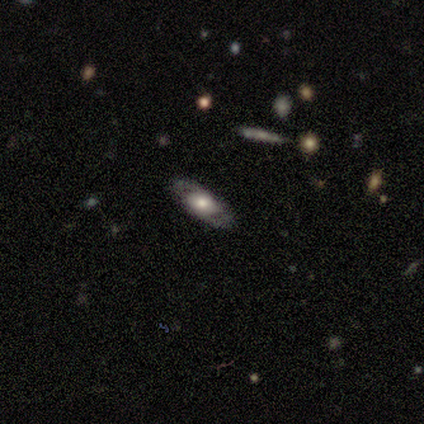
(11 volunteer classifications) This is likely a featured or disk galaxy (64%). It is likely not viewed edge-on (71%). Bar: clearly no (80%). Spiral arm pattern: likely yes (60%). Spiral arm count: clearly 2 (100%). Spiral winding: likely medium (67%). Central bulge: likely large (60%). Merging: clearly none (91%).